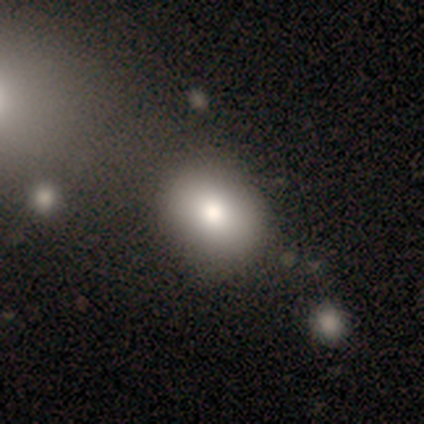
smooth_or_featured: smooth (p=0.68) [alt: featured or disk p=0.28]
how_rounded: in between (p=0.59) [alt: round p=0.41]
merging: none (p=0.53) [alt: merger p=0.11]